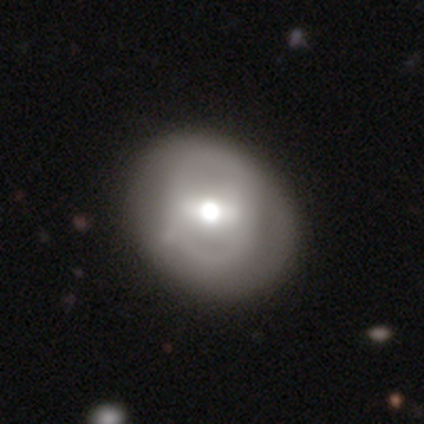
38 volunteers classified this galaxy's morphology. smooth_or_featured: featured or disk (p=0.47) [alt: smooth p=0.45]
disk_edge_on: no (p=0.94) [alt: yes p=0.06]
bar: weak (p=0.53) [alt: strong p=0.35]
has_spiral_arms: no (p=0.82) [alt: yes p=0.18]
bulge_size: moderate (p=0.76) [alt: large p=0.24]
merging: none (p=0.74) [alt: minor disturbance p=0.14]